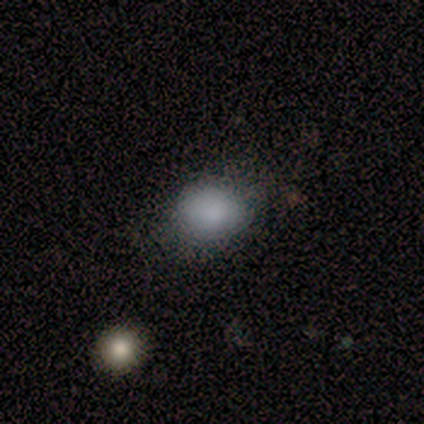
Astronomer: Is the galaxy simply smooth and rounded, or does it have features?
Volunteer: smooth — 100%.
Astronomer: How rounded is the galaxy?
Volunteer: round — 80%.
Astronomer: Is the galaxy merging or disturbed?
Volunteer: none — 60% (runner-up: minor disturbance, 40%).